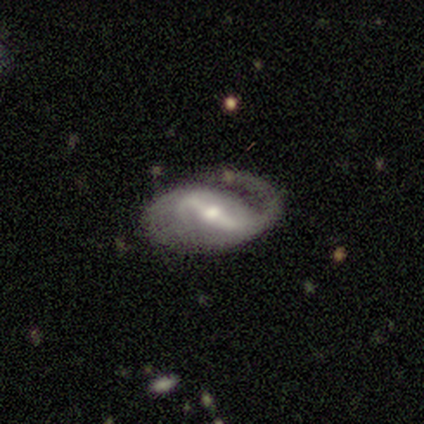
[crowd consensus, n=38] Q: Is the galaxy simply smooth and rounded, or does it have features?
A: featured or disk — 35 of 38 (92%).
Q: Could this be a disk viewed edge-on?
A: no — 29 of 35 (83%).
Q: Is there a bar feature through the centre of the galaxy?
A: strong — 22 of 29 (76%).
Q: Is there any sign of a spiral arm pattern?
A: yes — 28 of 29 (97%).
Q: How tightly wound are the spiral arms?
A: loose — 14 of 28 (50%).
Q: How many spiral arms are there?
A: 2 — 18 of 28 (64%).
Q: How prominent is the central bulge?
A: moderate — 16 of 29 (55%).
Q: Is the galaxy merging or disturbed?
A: none — 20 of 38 (53%).